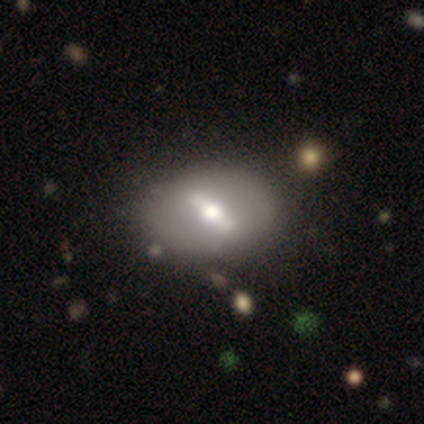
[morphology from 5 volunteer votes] Smooth or featured? featured or disk (80%)
Edge-on disk? no (75%)
Bar? strong (67%)
Spiral arms? no (100%)
Bulge size? large (67%)
Merging? none (60%)